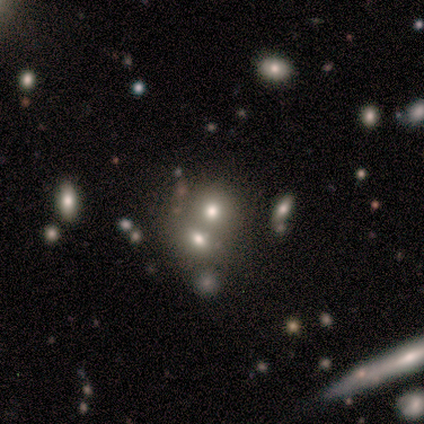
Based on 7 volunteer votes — Q: Smooth or featured?
A: smooth (100%)
Q: How rounded?
A: round (71%); runner-up: in between (29%)
Q: Merging?
A: none (57%); runner-up: merger (43%)